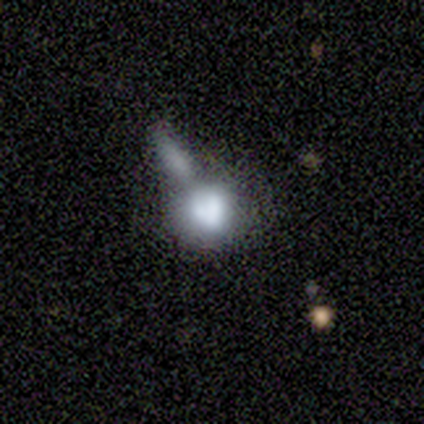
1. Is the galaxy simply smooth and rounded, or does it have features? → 60% smooth, 40% featured or disk, 0% star or artifact.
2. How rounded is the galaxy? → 100% round, 0% in between, 0% cigar-shaped.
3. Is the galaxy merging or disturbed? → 60% merger, 40% major disturbance, 0% none, 0% minor disturbance.